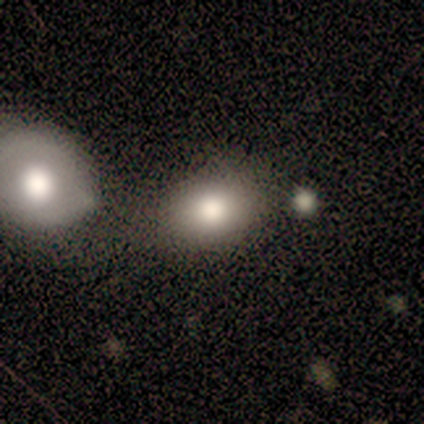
Volunteers were most divided on "how rounded": in between: 59%, round: 41%, cigar-shaped: 0%. More confident: smooth or featured — smooth (77%); merging — none (65%).